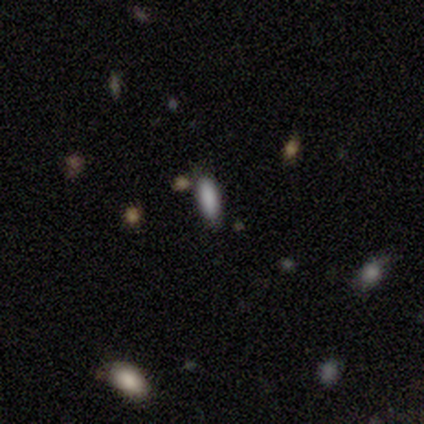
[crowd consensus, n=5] Volunteers were most divided on "smooth or featured": smooth: 60%, star or artifact: 40%, featured or disk: 0%. More confident: merging — none (100%); how rounded — cigar-shaped (67%).